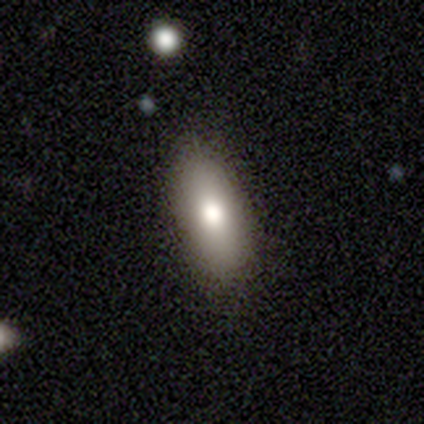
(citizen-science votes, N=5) smooth 80%, featured or disk 20%, star or artifact 0%. Down the decision tree: how rounded — in between (100%); merging — none (80%).